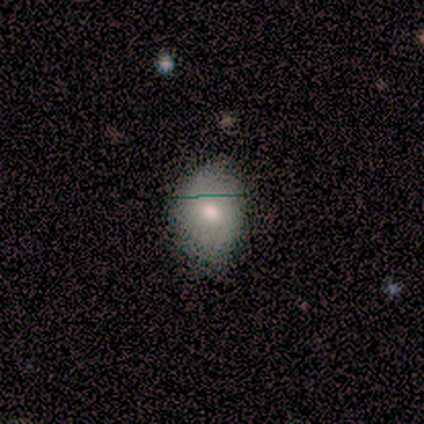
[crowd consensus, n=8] smooth-or-featured: smooth: 62% | star or artifact: 25% | featured or disk: 12%
  how-rounded: in between: 80% | round: 20% | cigar-shaped: 0%
  merging: none: 67% | minor disturbance: 17% | major disturbance: 17% | merger: 0%